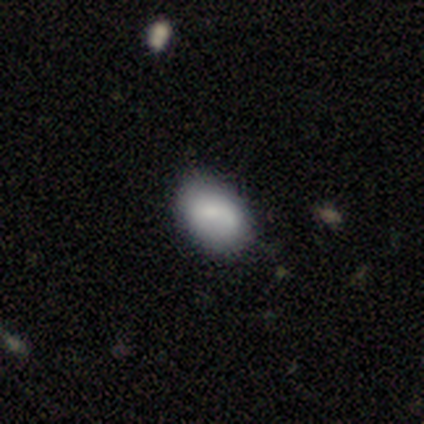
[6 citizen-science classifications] Volunteers were most divided on "how rounded": in between: 67%, round: 33%, cigar-shaped: 0%. More confident: smooth or featured — smooth (100%); merging — none (100%).